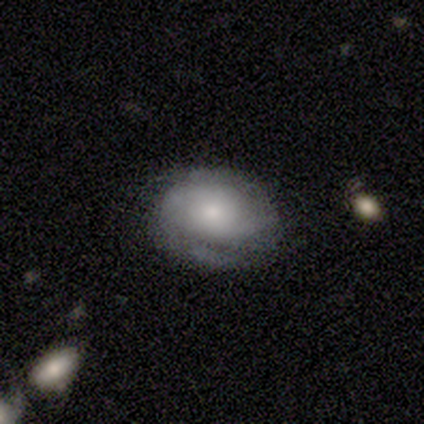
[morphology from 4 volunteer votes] smooth-or-featured: featured or disk: 100% | smooth: 0% | star or artifact: 0%
  disk-edge-on: no: 75% | yes: 25%
    bar: no: 67% | strong: 33% | weak: 0%
    has-spiral-arms: yes: 67% | no: 33%
      spiral-winding: tight: 50% (tied) | medium: 50% (tied) | loose: 0%
      spiral-arm-count: 2: 50% (tied) | 3: 50% (tied) | 1: 0% | 4: 0% | more than 4: 0% | can't tell: 0%
    bulge-size: small: 67% | moderate: 33% | dominant: 0% | large: 0% | none: 0%
  merging: none: 50% | minor disturbance: 25% | major disturbance: 25% | merger: 0%